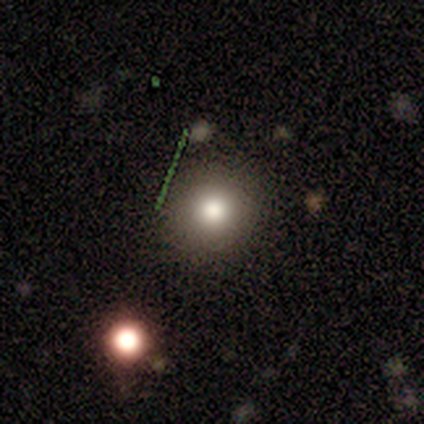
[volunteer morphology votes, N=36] smooth_or_featured: smooth (p=0.69) [alt: star or artifact p=0.25]
how_rounded: round (p=0.96) [alt: in between p=0.04]
merging: none (p=0.78) [alt: minor disturbance p=0.19]